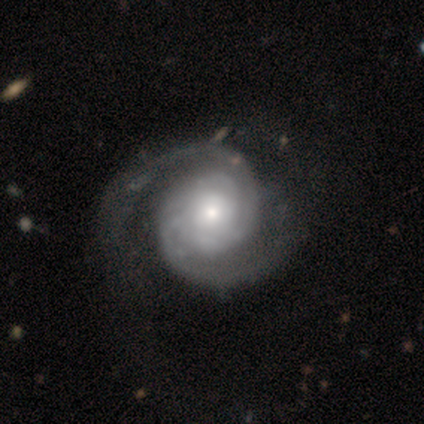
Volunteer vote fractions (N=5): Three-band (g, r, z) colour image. It shows a featured or disk galaxy (80%) with a weak bar (50%, tied with no), 2 (100%) medium (50%) spiral arms (100%) and a moderate central bulge (50%, tied with small). Merging: none (100%).